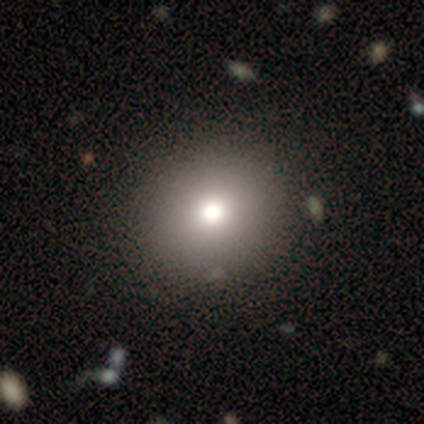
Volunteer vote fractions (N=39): Morphology: type=smooth (77%); roundness=round (83%); merging=none (65%).